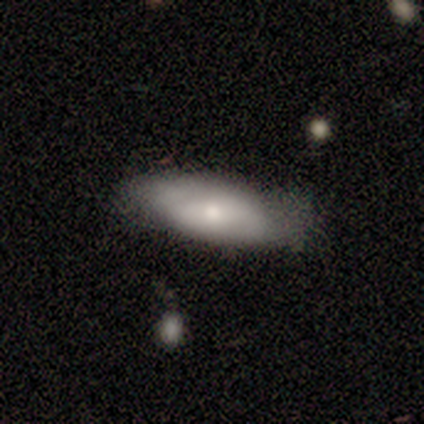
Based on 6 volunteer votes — smooth-or-featured: featured or disk: 67% | smooth: 33% | star or artifact: 0%
  disk-edge-on: yes: 50% (tied) | no: 50% (tied)
    edge-on-bulge: rounded: 100% | boxy: 0% | none: 0%
  merging: none: 67% | minor disturbance: 33% | major disturbance: 0% | merger: 0%